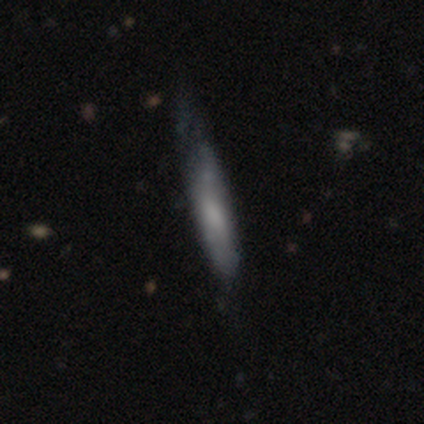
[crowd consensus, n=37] smooth-or-featured: smooth: 57% | featured or disk: 38% | star or artifact: 5%
  how-rounded: cigar-shaped: 100% | round: 0% | in between: 0%
  merging: none: 54% | minor disturbance: 23% | major disturbance: 20% | merger: 3%